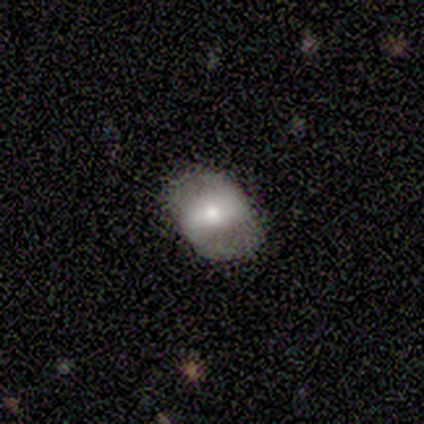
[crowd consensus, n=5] A featured or disk galaxy (80%) with a strong bar (75%), 2 (100%) medium (67%) spiral arms (75%) and a small central bulge (50%).

Vote fractions:
- Smooth or featured? featured or disk: 80% / smooth: 20% / star or artifact: 0%
- Edge-on disk? no: 100% / yes: 0%
- Bar? strong: 75% / weak: 25% / no: 0%
- Spiral arms? yes: 75% / no: 25%
- Spiral winding? medium: 67% / loose: 33% / tight: 0%
- Spiral arm count? 2: 100% / 1: 0% / 3: 0% / 4: 0% / more than 4: 0% / can't tell: 0%
- Bulge size? small: 50% / large: 25% / moderate: 25% / dominant: 0% / none: 0%
- Merging? none: 40% (tied) / major disturbance: 40% (tied) / minor disturbance: 20% / merger: 0%